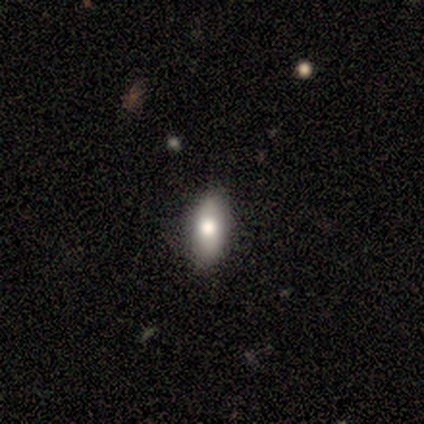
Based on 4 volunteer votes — A smooth galaxy with no disk features (75%) that is in between round and cigar-shaped (67%). Merging: none (100%).